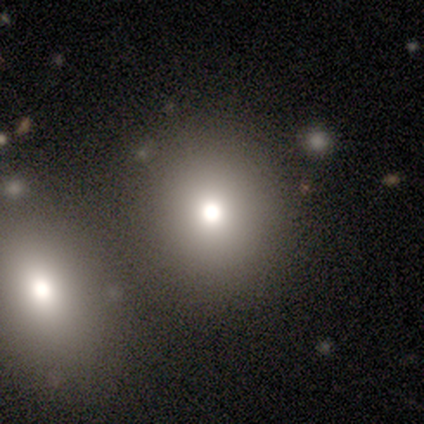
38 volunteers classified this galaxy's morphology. A smooth galaxy with no disk features (71%) that is round (78%).

Vote fractions:
- Smooth or featured? smooth: 71% / featured or disk: 16% / star or artifact: 13%
- How rounded? round: 78% / in between: 22% / cigar-shaped: 0%
- Merging? none: 52% / merger: 33% / major disturbance: 9% / minor disturbance: 6%